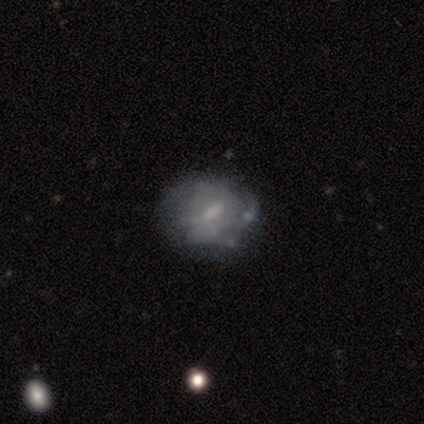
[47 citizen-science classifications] Overall: featured or disk (81%). Edge-on disk: no (97%). Bar: weak (73%). Spiral arms: yes (73%). Spiral arm count: 2 (56%; can't tell 41%). Spiral winding: medium (74%). Bulge size: moderate (54%; small 24%). Merging: none (56%).